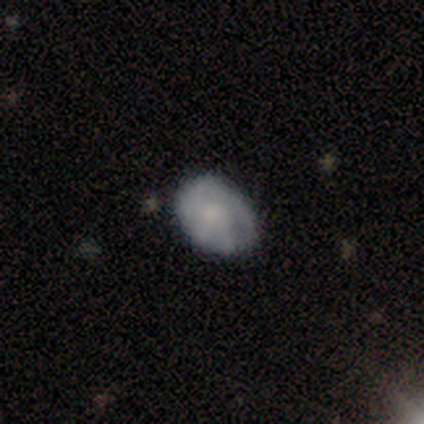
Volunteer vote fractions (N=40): Q: Smooth or featured?
A: smooth (57%); runner-up: featured or disk (38%)
Q: How rounded?
A: in between (65%); runner-up: round (30%)
Q: Merging?
A: none (61%); runner-up: minor disturbance (34%)